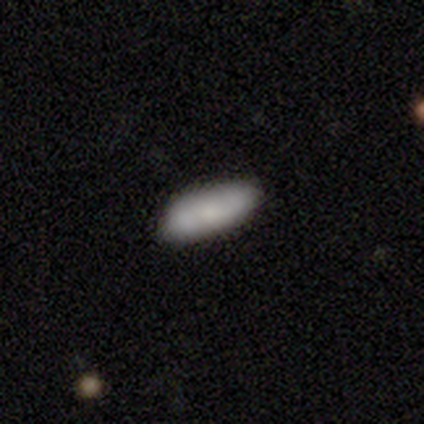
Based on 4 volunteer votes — Smooth or featured? 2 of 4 (50%, tied with star or artifact) said smooth. How rounded? 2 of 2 (100%) said in between. Merging? 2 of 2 (100%) said none.